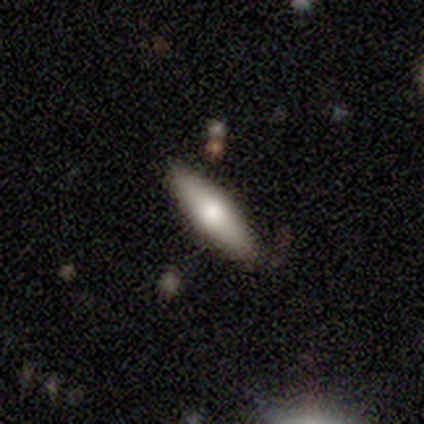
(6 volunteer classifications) smooth_or_featured: smooth (p=0.50) [tied with: featured or disk p=0.50]
how_rounded: cigar-shaped (p=1.00)
merging: none (p=1.00)